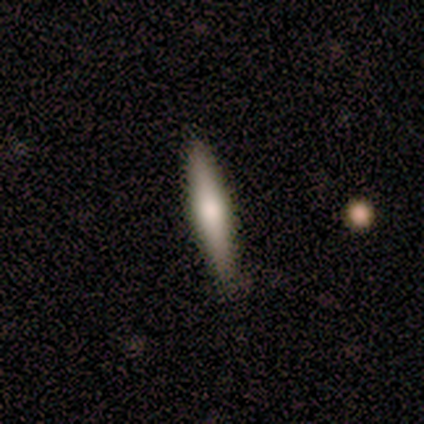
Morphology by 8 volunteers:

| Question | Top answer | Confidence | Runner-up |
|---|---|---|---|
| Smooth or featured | featured or disk | 62% | smooth (38%) |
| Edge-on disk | yes | 100% | — |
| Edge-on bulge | rounded | 100% | — |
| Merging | none | 88% | minor disturbance (12%) |